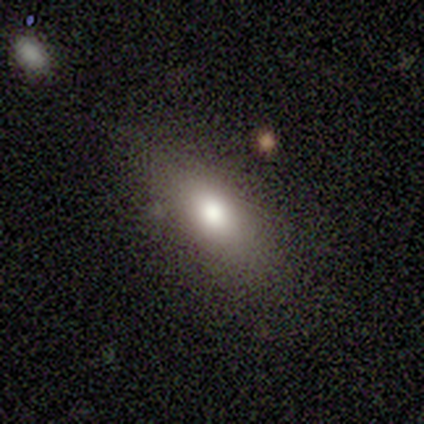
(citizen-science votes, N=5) Morphology: type=smooth (80%); roundness=in between (100%); merging=none (80%).